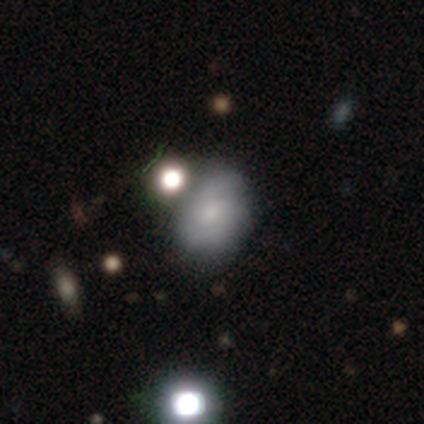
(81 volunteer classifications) This appears to be a smooth galaxy with no disk features (54%) that is in between round and cigar-shaped (68%). Merging: none (56%).